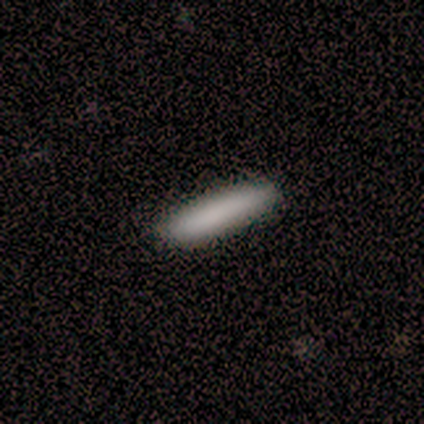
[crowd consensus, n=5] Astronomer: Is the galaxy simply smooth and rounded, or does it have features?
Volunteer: smooth — 100%.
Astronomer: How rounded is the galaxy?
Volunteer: cigar-shaped — 80%.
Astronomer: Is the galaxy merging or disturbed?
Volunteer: none — 80%.